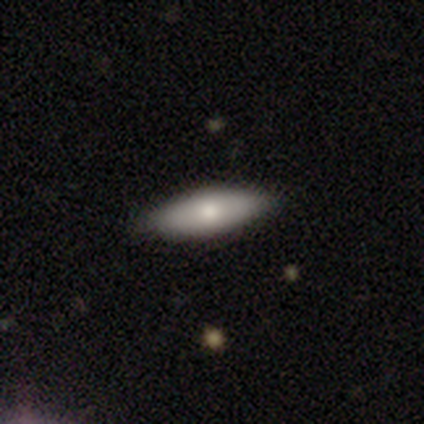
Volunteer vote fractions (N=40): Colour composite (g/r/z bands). It shows a smooth galaxy with no disk features (75%) that is in between round and cigar-shaped (60%). Merging: none (90%).